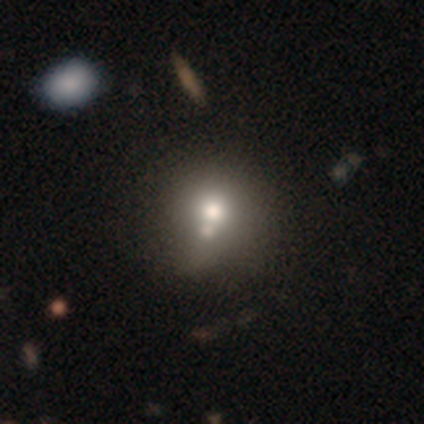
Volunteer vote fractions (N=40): This is clearly a smooth galaxy (80%). How rounded: clearly round (84%). Merging: marginally merger (41%).